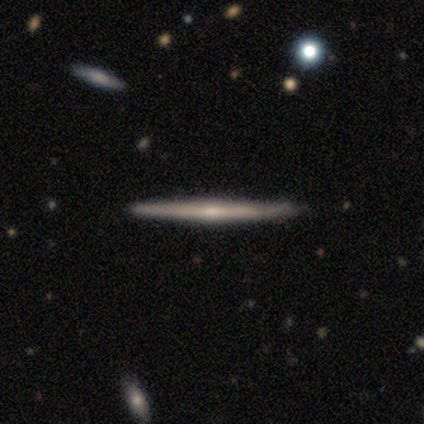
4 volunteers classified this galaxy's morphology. Q: Smooth or featured?
A: featured or disk (75%); runner-up: smooth (25%)
Q: Edge-on disk?
A: yes (100%)
Q: Edge-on bulge?
A: none (67%); runner-up: rounded (33%)
Q: Merging?
A: none (100%)